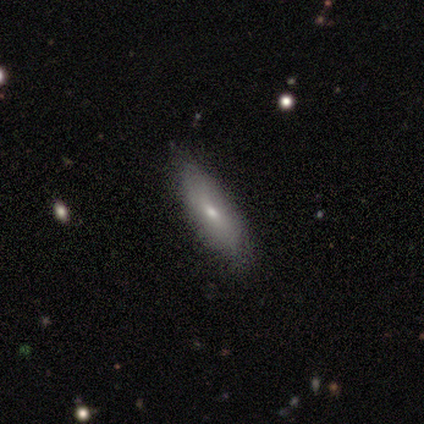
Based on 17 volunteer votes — Smooth or featured? smooth (53%)
How rounded? cigar-shaped (78%)
Merging? none (88%)